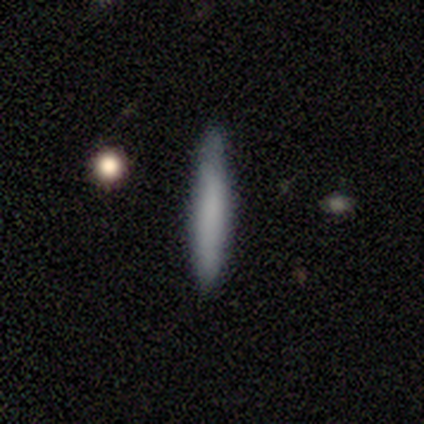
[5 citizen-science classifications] Smooth or featured?
  - smooth: 100% *
  - featured or disk: 0%
  - star or artifact: 0%
How rounded?
  - cigar-shaped: 80% *
  - in between: 20%
  - round: 0%
Merging?
  - none: 100% *
  - minor disturbance: 0%
  - major disturbance: 0%
  - merger: 0%